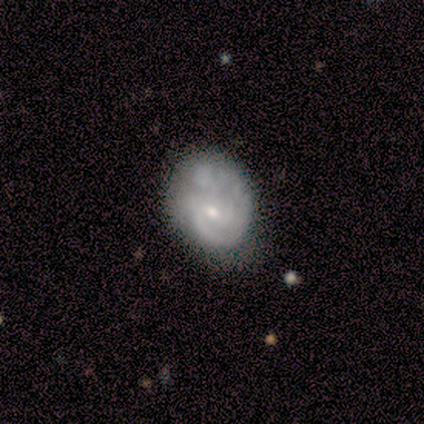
Smooth or featured?
  - featured or disk: 75% *
  - smooth: 25%
  - star or artifact: 0%
Edge-on disk?
  - no: 67% *
  - yes: 33%
Bar?
  - weak: 50% * (tied)
  - no: 50% * (tied)
  - strong: 0%
Spiral arms?
  - yes: 50% * (tied)
  - no: 50% * (tied)
Spiral winding?
  - medium: 100% *
  - tight: 0%
  - loose: 0%
Spiral arm count?
  - 2: 100% *
  - 1: 0%
  - 3: 0%
  - 4: 0%
  - more than 4: 0%
  - can't tell: 0%
Bulge size?
  - moderate: 50% * (tied)
  - small: 50% * (tied)
  - dominant: 0%
  - large: 0%
  - none: 0%
Merging?
  - none: 75% *
  - minor disturbance: 25%
  - major disturbance: 0%
  - merger: 0%